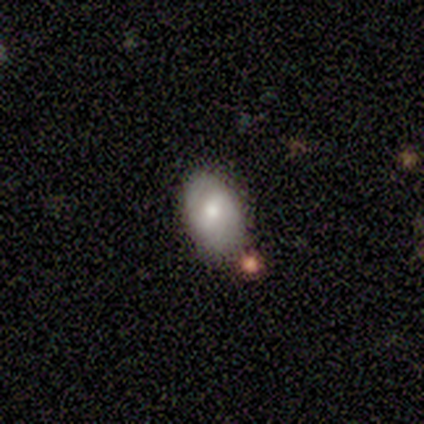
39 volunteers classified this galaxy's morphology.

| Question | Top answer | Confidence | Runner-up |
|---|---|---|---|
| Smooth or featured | smooth | 49% | featured or disk (46%) |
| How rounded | in between | 100% | — |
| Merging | none | 73% | minor disturbance (19%) |